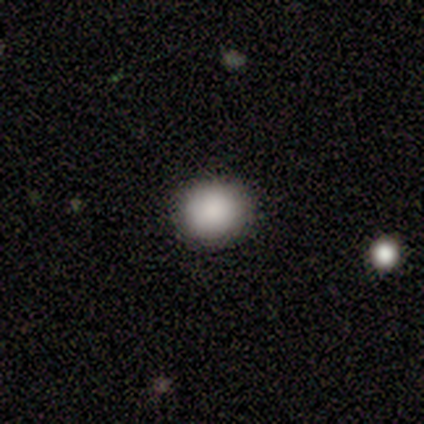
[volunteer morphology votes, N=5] Smooth or featured? 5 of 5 (100%) said smooth. How rounded? 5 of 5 (100%) said round. Merging? 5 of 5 (100%) said none.